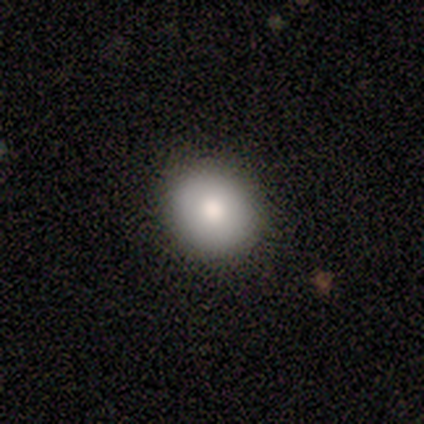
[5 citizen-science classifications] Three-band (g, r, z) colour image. It shows a smooth galaxy with no disk features (80%) that is round (50%, tied with in between). Merging: none (80%).